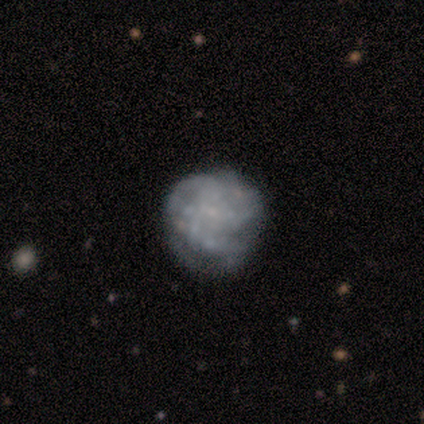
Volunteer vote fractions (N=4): Smooth or featured? 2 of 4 (50%, tied with featured or disk) said smooth. How rounded? 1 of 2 (50%, tied with in between) said round. Merging? 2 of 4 (50%) said none.